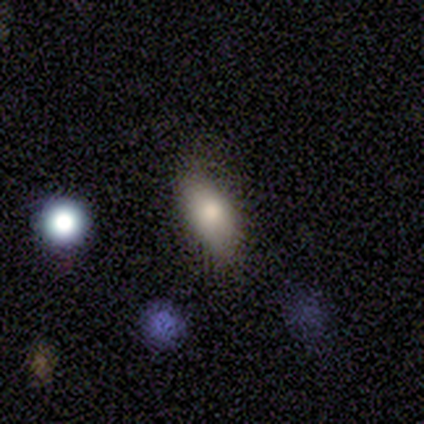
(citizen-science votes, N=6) Smooth or featured? 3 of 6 (50%) said smooth. How rounded? 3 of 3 (100%) said in between. Merging? 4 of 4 (100%) said none.